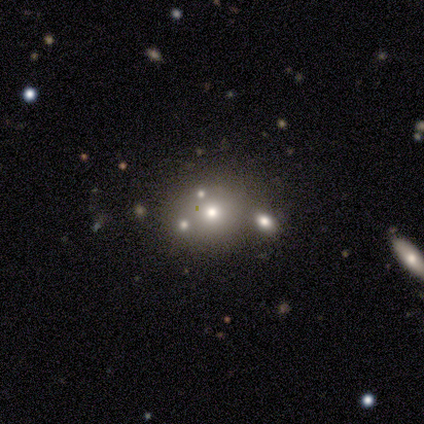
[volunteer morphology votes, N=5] smooth 60%, featured or disk 20%, star or artifact 20%. Down the decision tree: how rounded — in between (100%); merging — none (50%).